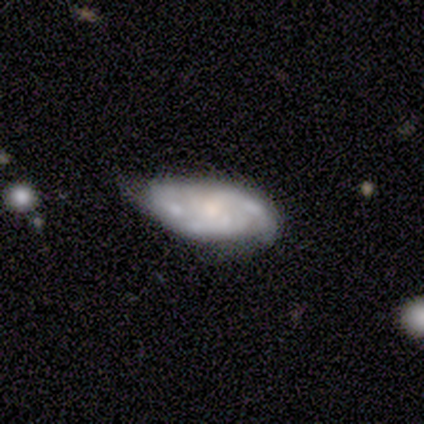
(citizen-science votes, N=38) Smooth or featured? 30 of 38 (79%) said featured or disk. Edge-on disk? 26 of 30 (87%) said no. Bar? 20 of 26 (77%) said no. Spiral arms? 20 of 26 (77%) said yes. Spiral winding? 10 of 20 (50%) said tight. Spiral arm count? 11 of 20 (55%) said can't tell. Bulge size? 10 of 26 (38%) said moderate. Merging? 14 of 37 (38%, tied with minor disturbance) said none.